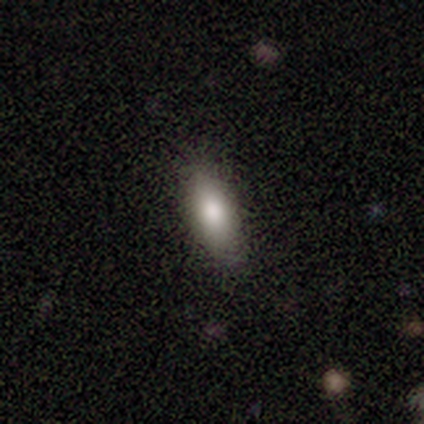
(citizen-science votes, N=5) smooth 100%, featured or disk 0%, star or artifact 0%. Down the decision tree: how rounded — in between (80%); merging — none (80%).